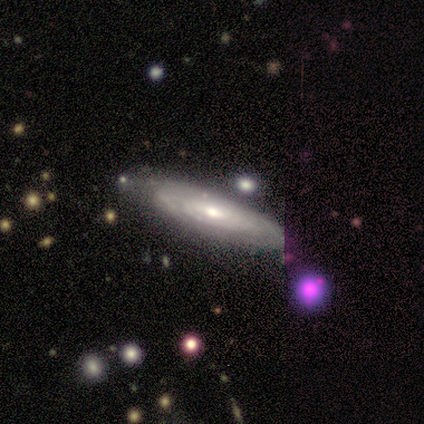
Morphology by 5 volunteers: Smooth or featured?
  - featured or disk: 80% *
  - star or artifact: 20%
  - smooth: 0%
Edge-on disk?
  - no: 75% *
  - yes: 25%
Bar?
  - strong: 33% * (tied)
  - weak: 33% * (tied)
  - no: 33% * (tied)
Spiral arms?
  - yes: 100% *
  - no: 0%
Spiral winding?
  - tight: 100% *
  - medium: 0%
  - loose: 0%
Spiral arm count?
  - can't tell: 100% *
  - 1: 0%
  - 2: 0%
  - 3: 0%
  - 4: 0%
  - more than 4: 0%
Bulge size?
  - small: 67% *
  - large: 33%
  - dominant: 0%
  - moderate: 0%
  - none: 0%
Merging?
  - none: 100% *
  - minor disturbance: 0%
  - major disturbance: 0%
  - merger: 0%